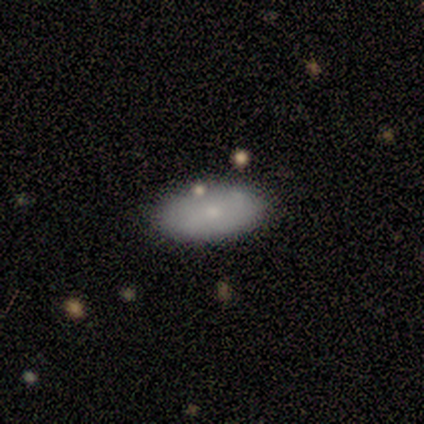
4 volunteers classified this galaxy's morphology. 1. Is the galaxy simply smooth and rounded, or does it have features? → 75% smooth, 25% featured or disk, 0% star or artifact.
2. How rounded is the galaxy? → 67% in between, 33% cigar-shaped, 0% round.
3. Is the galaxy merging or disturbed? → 100% none, 0% minor disturbance, 0% major disturbance, 0% merger.